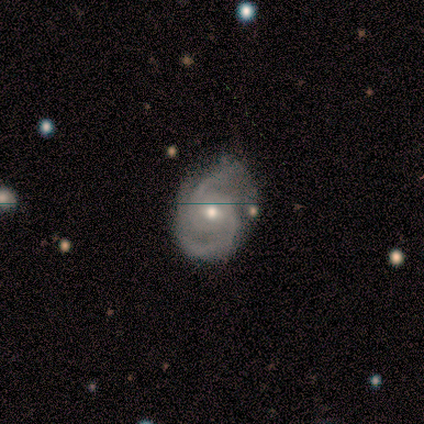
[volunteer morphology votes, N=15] Q: Smooth or featured?
A: featured or disk (73%); runner-up: star or artifact (27%)
Q: Edge-on disk?
A: no (100%)
Q: Bar?
A: weak (64%); runner-up: no (36%)
Q: Spiral arms?
A: yes (100%)
Q: Spiral winding?
A: tight (45%); runner-up: medium (36%)
Q: Spiral arm count?
A: 2 (91%); runner-up: can't tell (9%)
Q: Bulge size?
A: moderate (45%); runner-up: small (36%)
Q: Merging?
A: none (64%); runner-up: minor disturbance (18%)